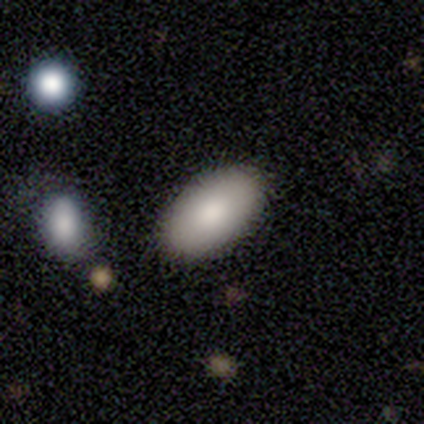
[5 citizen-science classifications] Volunteers were most divided on "merging": none: 80%, minor disturbance: 20%, major disturbance: 0%, merger: 0%. More confident: smooth or featured — smooth (100%); how rounded — in between (100%).